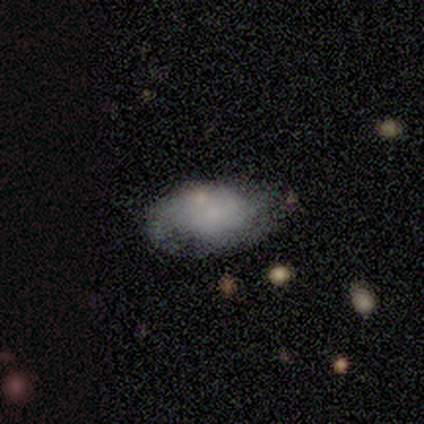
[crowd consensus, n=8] Smooth or featured?
  - smooth: 62% *
  - featured or disk: 25%
  - star or artifact: 12%
How rounded?
  - in between: 80% *
  - round: 20%
  - cigar-shaped: 0%
Merging?
  - none: 57% *
  - minor disturbance: 43%
  - major disturbance: 0%
  - merger: 0%